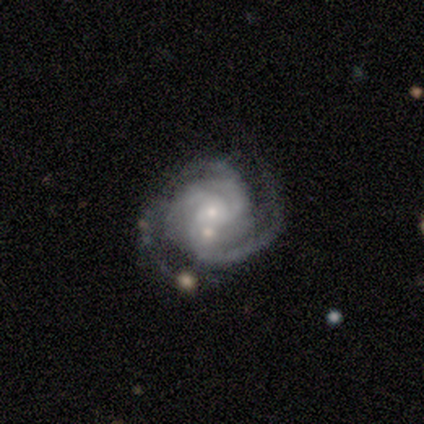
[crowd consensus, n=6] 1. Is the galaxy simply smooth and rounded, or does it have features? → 100% featured or disk, 0% smooth, 0% star or artifact.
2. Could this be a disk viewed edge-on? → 100% no, 0% yes.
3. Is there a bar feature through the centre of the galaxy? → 83% no, 17% weak, 0% strong.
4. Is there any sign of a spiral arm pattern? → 100% yes, 0% no.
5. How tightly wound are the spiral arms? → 83% tight, 17% medium, 0% loose.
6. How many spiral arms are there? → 67% 3, 17% 2, 17% can't tell, 0% 1, 0% 4, 0% more than 4.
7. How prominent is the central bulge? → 83% small, 17% moderate, 0% dominant, 0% large, 0% none.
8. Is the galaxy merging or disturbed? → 83% none, 17% merger, 0% minor disturbance, 0% major disturbance.